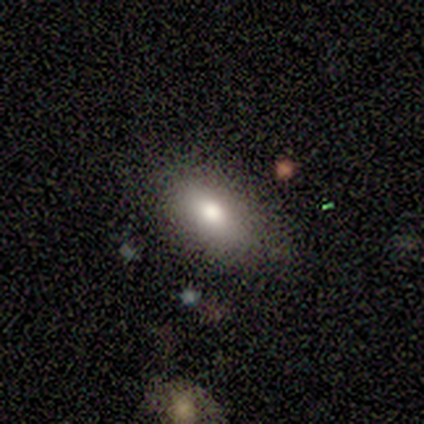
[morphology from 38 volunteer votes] A smooth galaxy with no disk features (79%) that is in between round and cigar-shaped (83%).

Vote fractions:
- Smooth or featured? smooth: 79% / featured or disk: 13% / star or artifact: 8%
- How rounded? in between: 83% / round: 10% / cigar-shaped: 7%
- Merging? none: 80% / minor disturbance: 14% / merger: 6% / major disturbance: 0%